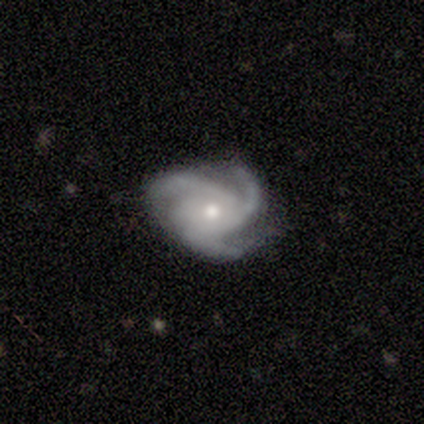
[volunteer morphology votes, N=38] Smooth or featured?
  - featured or disk: 92% *
  - smooth: 5%
  - star or artifact: 3%
Edge-on disk?
  - no: 97% *
  - yes: 3%
Bar?
  - no: 76% *
  - weak: 15%
  - strong: 9%
Spiral arms?
  - yes: 100% *
  - no: 0%
Spiral winding?
  - medium: 62% *
  - tight: 32%
  - loose: 6%
Spiral arm count?
  - 3: 97% *
  - 4: 3%
  - 1: 0%
  - 2: 0%
  - more than 4: 0%
  - can't tell: 0%
Bulge size?
  - moderate: 59% *
  - small: 35%
  - dominant: 3%
  - none: 3%
  - large: 0%
Merging?
  - none: 70% *
  - minor disturbance: 24%
  - major disturbance: 3%
  - merger: 3%